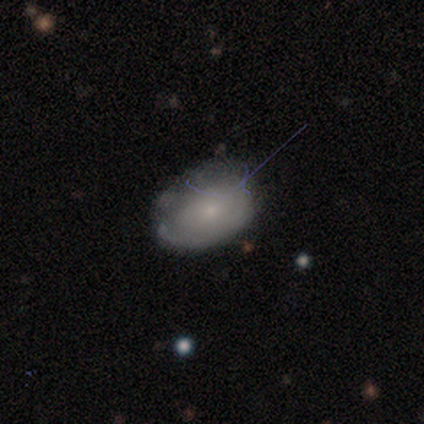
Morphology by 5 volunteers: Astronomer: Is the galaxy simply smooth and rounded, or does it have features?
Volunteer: smooth — 60% (runner-up: featured or disk, 40%).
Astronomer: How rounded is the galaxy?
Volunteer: in between — 67%.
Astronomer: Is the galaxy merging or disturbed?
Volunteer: none — 60% (runner-up: minor disturbance, 40%).